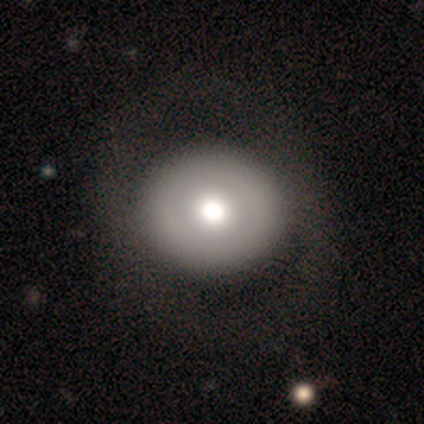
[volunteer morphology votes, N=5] Smooth or featured? 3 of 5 (60%) said featured or disk. Edge-on disk? 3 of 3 (100%) said no. Bar? 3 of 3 (100%) said no. Spiral arms? 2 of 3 (67%) said no. Bulge size? 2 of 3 (67%) said dominant. Merging? 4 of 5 (80%) said none.